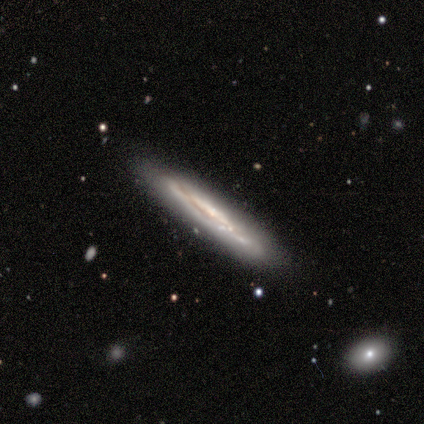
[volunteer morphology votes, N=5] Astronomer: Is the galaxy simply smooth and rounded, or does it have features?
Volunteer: featured or disk — 80%.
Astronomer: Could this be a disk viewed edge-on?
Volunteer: yes — 100%.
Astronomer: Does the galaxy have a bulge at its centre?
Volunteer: none — 100%.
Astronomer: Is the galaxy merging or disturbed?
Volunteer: none — 80%.